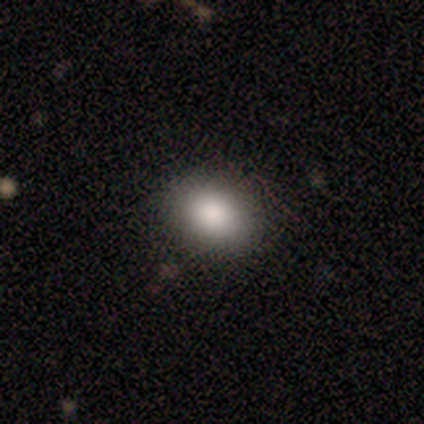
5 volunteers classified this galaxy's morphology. Smooth or featured? smooth (80%)
How rounded? in between (75%)
Merging? none (75%)